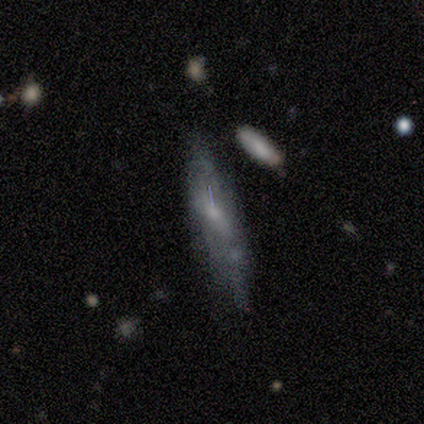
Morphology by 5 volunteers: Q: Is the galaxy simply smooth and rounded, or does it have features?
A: smooth — 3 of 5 (60%).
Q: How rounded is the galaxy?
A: cigar-shaped — 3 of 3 (100%).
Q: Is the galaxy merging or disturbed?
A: none — 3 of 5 (60%).